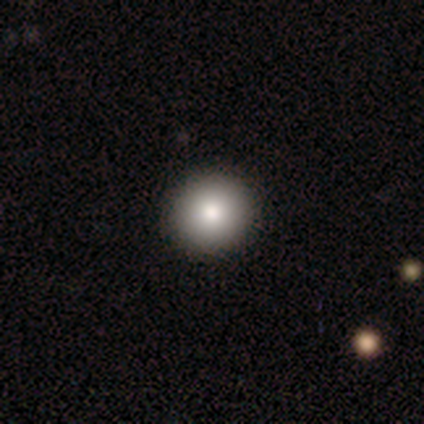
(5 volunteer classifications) Morphology: type=smooth (100%); roundness=round (80%); merging=none (100%).